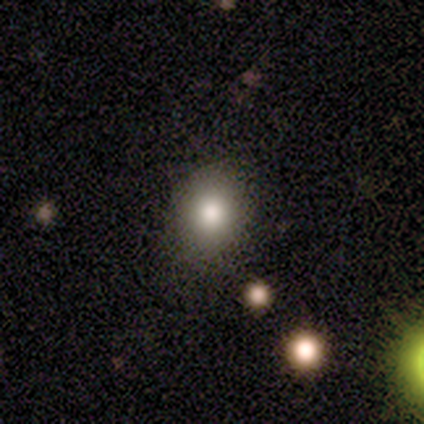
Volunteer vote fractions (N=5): Volunteers were most divided on "how rounded": in between: 80%, round: 20%, cigar-shaped: 0%. More confident: smooth or featured — smooth (100%); merging — none (100%).